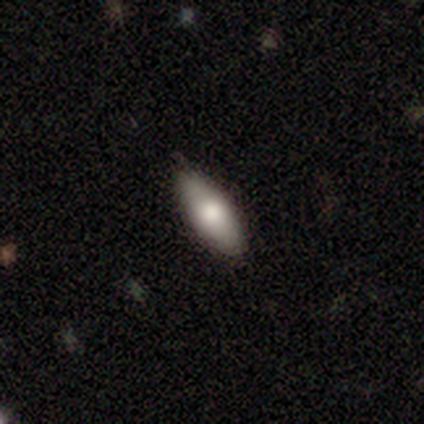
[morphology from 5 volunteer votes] This appears to be a smooth galaxy with no disk features (80%) that is in between round and cigar-shaped (100%). Merging: none (100%).